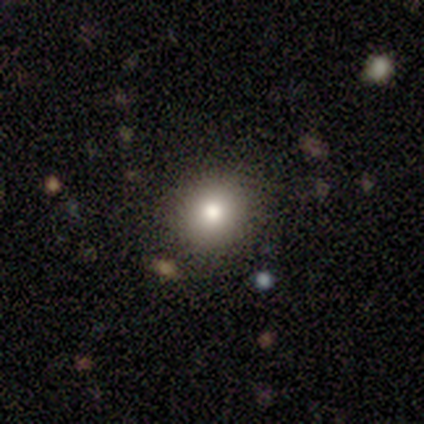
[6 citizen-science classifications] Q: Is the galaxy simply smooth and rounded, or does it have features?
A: smooth — 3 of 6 (50%).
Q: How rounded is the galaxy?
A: round — 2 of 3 (67%).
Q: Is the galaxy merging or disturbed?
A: none — 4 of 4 (100%).